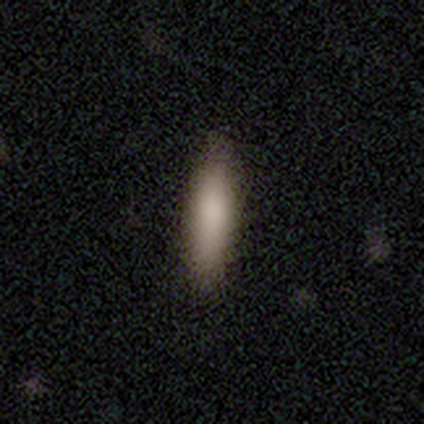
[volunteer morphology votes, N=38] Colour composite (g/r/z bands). It shows a smooth galaxy with no disk features (87%) that is cigar-shaped (67%). Merging: none (54%).